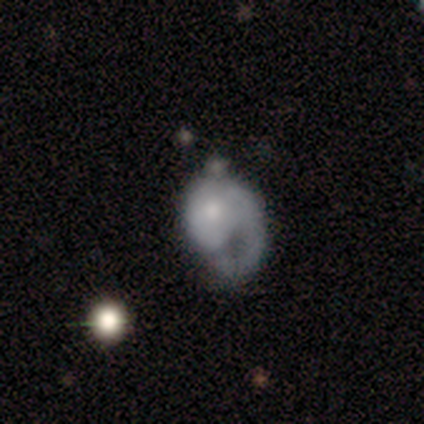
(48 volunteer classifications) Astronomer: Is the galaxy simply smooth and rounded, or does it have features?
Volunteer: featured or disk — 67%.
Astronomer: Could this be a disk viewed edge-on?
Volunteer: no — 100%.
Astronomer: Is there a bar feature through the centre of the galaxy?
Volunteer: no — 91%.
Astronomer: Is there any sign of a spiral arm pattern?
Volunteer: yes — 78%.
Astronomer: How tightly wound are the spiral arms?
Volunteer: medium — 40% (runner-up: loose, 36%).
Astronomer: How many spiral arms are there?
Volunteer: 1 — 96%.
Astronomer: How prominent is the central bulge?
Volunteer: moderate — 53% (runner-up: small, 34%).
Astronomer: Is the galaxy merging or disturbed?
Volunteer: major disturbance — 48% (runner-up: none, 33%).